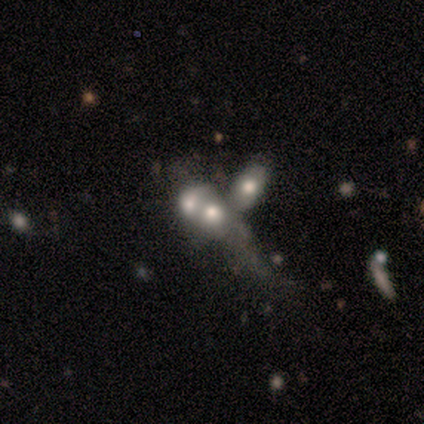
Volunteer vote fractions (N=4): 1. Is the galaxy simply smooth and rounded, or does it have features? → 50% featured or disk, 25% smooth, 25% star or artifact.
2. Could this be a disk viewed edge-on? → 100% no, 0% yes.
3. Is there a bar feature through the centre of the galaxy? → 100% no, 0% strong, 0% weak.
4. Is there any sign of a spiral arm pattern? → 100% no, 0% yes.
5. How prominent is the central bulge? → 50% large (tied), 50% moderate (tied), 0% dominant, 0% small, 0% none.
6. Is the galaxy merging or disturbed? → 33% none (tied), 33% major disturbance (tied), 33% merger (tied), 0% minor disturbance.